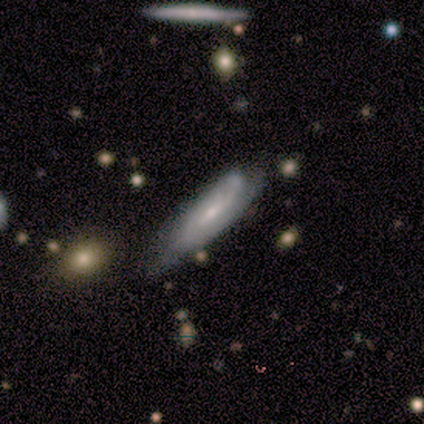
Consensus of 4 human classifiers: Smooth or featured?
  - smooth: 50% * (tied)
  - featured or disk: 50% * (tied)
  - star or artifact: 0%
How rounded?
  - cigar-shaped: 100% *
  - round: 0%
  - in between: 0%
Merging?
  - none: 50% * (tied)
  - minor disturbance: 50% * (tied)
  - major disturbance: 0%
  - merger: 0%